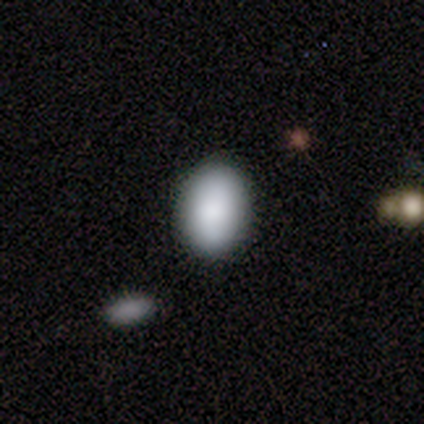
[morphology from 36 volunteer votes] A smooth galaxy with no disk features (75%) that is in between round and cigar-shaped (81%). Merging: none (87%).